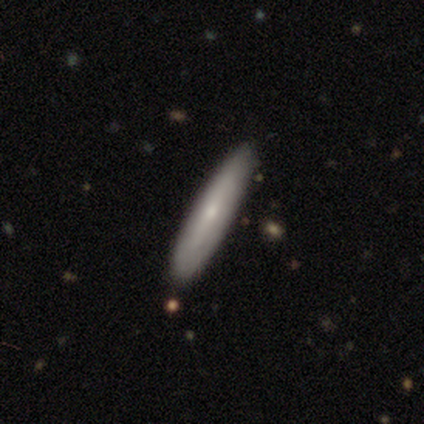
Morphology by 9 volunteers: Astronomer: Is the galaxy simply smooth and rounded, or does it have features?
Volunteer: featured or disk — 78%.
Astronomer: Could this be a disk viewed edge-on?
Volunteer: yes — 57% (runner-up: no, 43%).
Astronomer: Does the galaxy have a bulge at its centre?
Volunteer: rounded — 75%.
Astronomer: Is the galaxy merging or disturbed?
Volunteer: none — 100%.